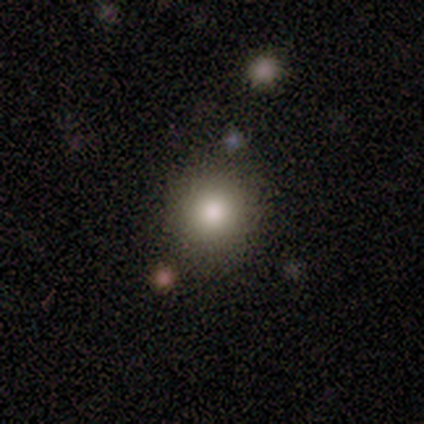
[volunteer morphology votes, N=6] Smooth or featured? smooth (100%)
How rounded? round (83%)
Merging? none (67%)